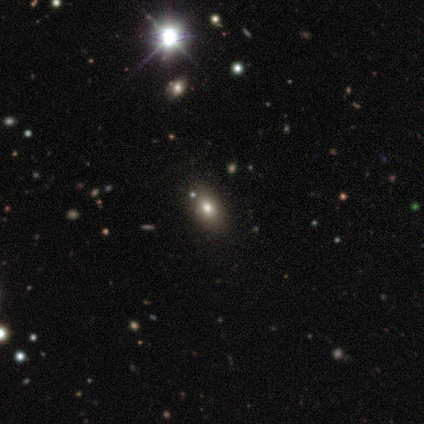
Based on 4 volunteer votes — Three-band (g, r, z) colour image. It shows a star or artifact, not a galaxy (75%).